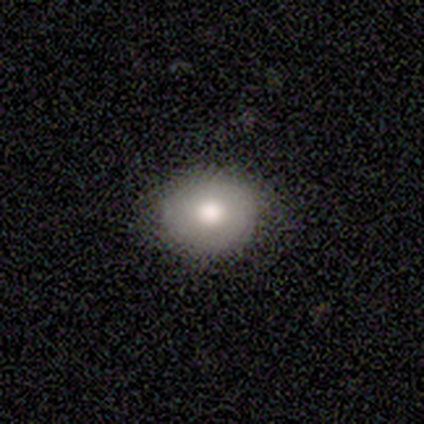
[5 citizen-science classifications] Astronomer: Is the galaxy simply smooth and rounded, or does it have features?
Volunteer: smooth — 80%.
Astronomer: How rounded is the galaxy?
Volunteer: round — 100%.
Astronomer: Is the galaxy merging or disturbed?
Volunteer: none — 80%.